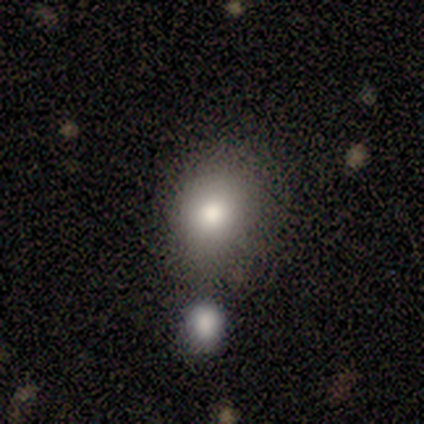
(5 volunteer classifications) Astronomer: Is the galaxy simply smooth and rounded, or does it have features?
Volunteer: smooth — 100%.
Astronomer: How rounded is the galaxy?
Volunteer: round — 80%.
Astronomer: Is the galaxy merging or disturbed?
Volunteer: none — 60%.